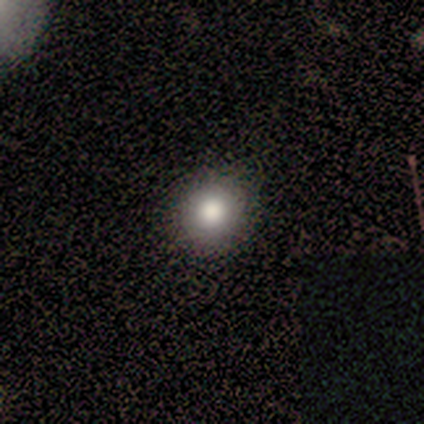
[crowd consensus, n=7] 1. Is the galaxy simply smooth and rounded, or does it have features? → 86% smooth, 14% star or artifact, 0% featured or disk.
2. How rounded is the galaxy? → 83% round, 17% in between, 0% cigar-shaped.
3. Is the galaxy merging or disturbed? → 83% none, 17% minor disturbance, 0% major disturbance, 0% merger.